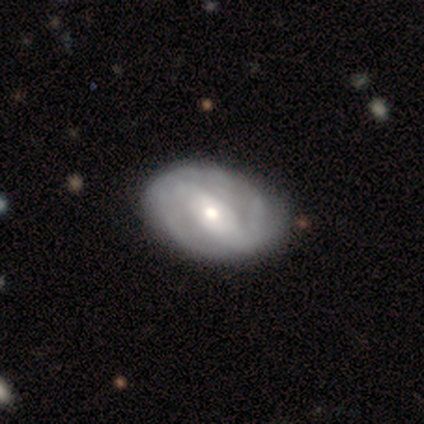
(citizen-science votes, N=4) A featured or disk galaxy (100%) with a strong bar (100%), 2 (67%) medium (67%) spiral arms (75%) and a moderate central bulge (50%, tied with small). Merging: none (100%).